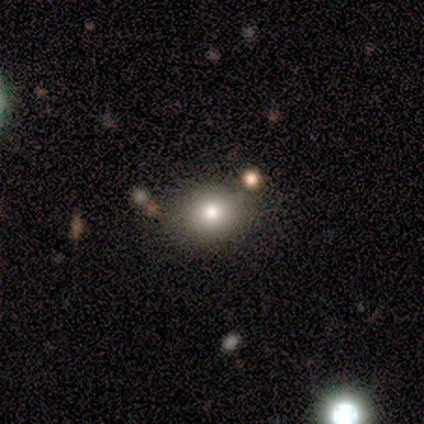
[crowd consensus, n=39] Smooth or featured? smooth (69%)
How rounded? round (67%)
Merging? none (73%)